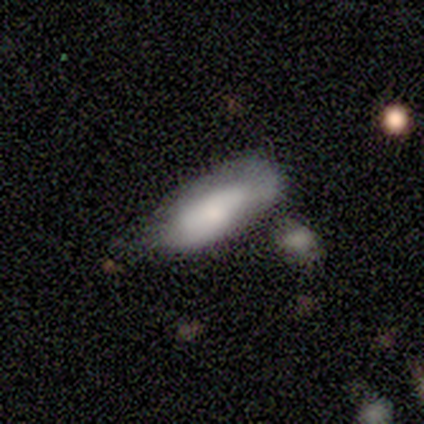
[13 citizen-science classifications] smooth 92%, featured or disk 8%, star or artifact 0%. Down the decision tree: how rounded — in between (75%); merging — none (46%).